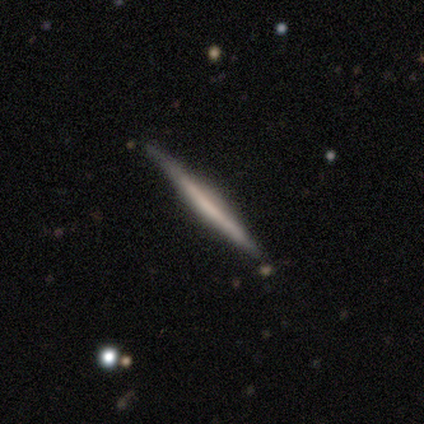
Morphology: type=smooth (60%); roundness=cigar-shaped (100%); merging=none (100%).